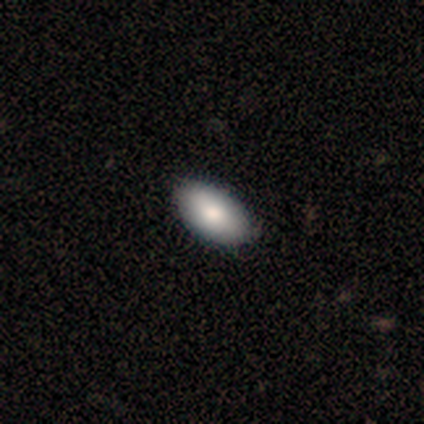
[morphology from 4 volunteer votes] A smooth galaxy with no disk features (75%) that is in between round and cigar-shaped (67%). Merging: none (100%).